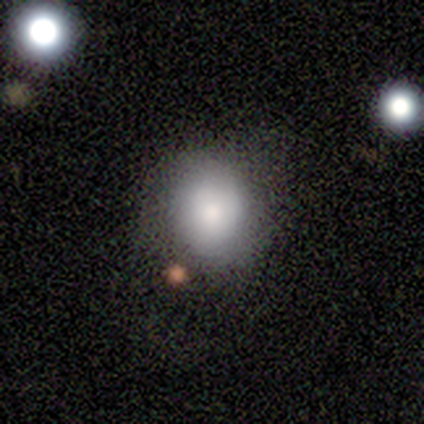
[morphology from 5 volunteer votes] Smooth or featured?
  - smooth: 80% *
  - star or artifact: 20%
  - featured or disk: 0%
How rounded?
  - round: 100% *
  - in between: 0%
  - cigar-shaped: 0%
Merging?
  - none: 75% *
  - minor disturbance: 25%
  - major disturbance: 0%
  - merger: 0%